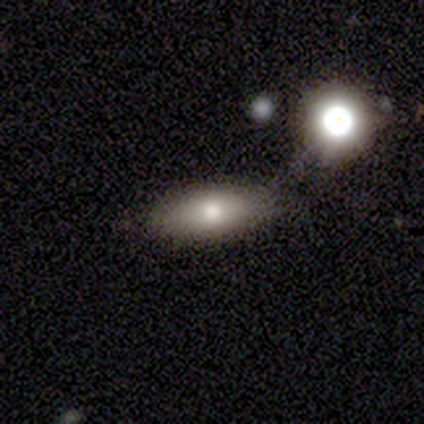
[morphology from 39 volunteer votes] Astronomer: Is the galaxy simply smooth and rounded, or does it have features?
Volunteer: smooth — 79%.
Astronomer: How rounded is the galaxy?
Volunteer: in between — 74%.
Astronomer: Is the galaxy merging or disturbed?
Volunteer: none — 55%.